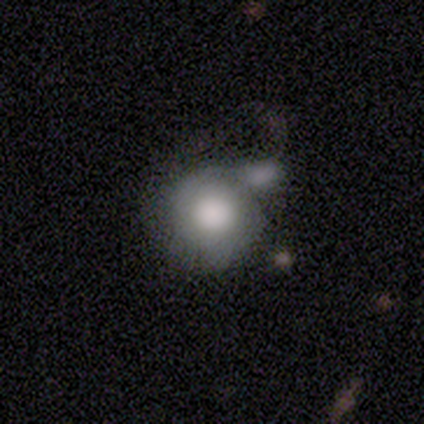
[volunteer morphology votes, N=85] type=smooth (61%); roundness=round (96%); merging=merger (49%).